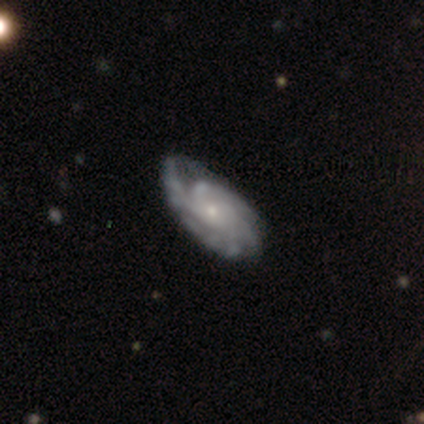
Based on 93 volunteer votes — Smooth or featured? 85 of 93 (91%) said featured or disk. Edge-on disk? 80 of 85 (94%) said no. Bar? 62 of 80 (78%) said no. Spiral arms? 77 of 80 (96%) said yes. Spiral winding? 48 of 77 (62%) said tight. Spiral arm count? 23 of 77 (30%) said can't tell. Bulge size? 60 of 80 (75%) said small. Merging? 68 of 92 (74%) said none.